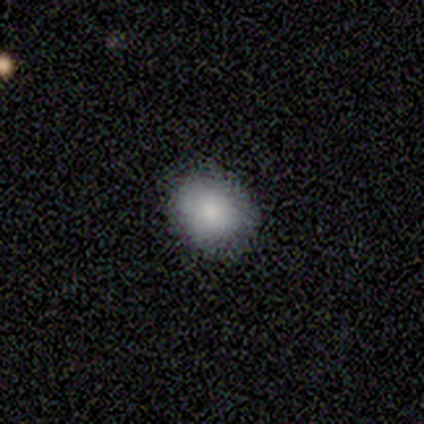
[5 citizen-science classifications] Q: Smooth or featured?
A: smooth (100%)
Q: How rounded?
A: in between (60%); runner-up: round (40%)
Q: Merging?
A: none (80%); runner-up: minor disturbance (20%)